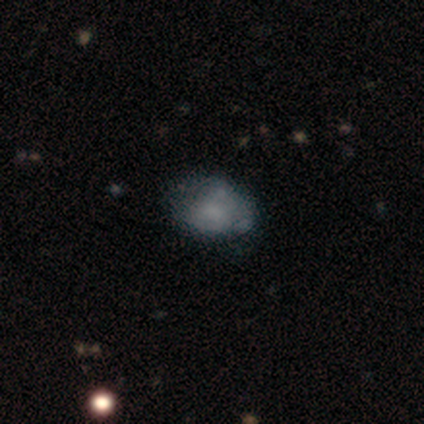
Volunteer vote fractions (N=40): Overall: smooth (52%; featured or disk 40%). How rounded: in between (81%). Merging: none (49%; minor disturbance 38%).